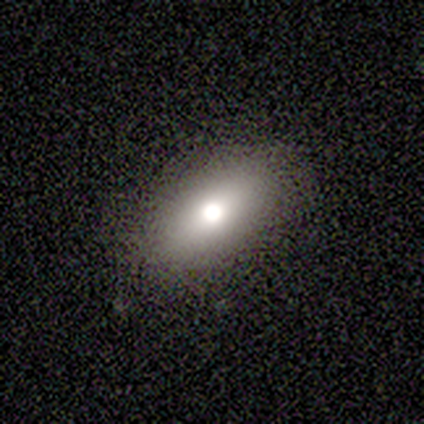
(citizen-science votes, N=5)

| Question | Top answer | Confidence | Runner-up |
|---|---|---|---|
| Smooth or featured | featured or disk | 40% | tied: star or artifact (40%) |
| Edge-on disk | no | 100% | — |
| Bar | no | 100% | — |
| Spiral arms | no | 100% | — |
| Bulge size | moderate | 100% | — |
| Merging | none | 100% | — |